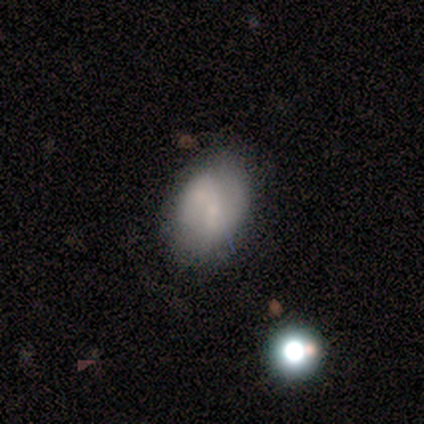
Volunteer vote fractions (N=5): Smooth or featured: featured or disk — 80% (smooth — 20%)
Edge-on disk: no — 100%
Bar: no — 75% (weak — 25%)
Spiral arms: no — 75% (yes — 25%)
Bulge size: small — 75% (none — 25%)
Merging: none — 60% (minor disturbance — 20%)